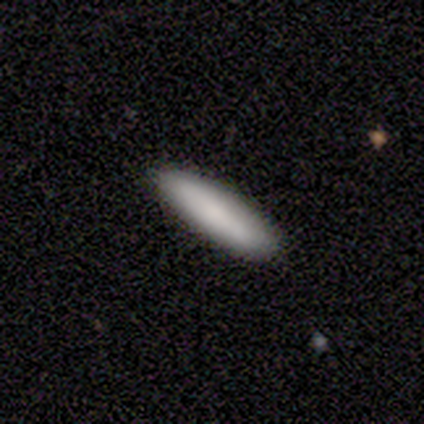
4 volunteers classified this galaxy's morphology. Smooth or featured? 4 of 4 (100%) said smooth. How rounded? 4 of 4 (100%) said cigar-shaped. Merging? 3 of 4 (75%) said none.